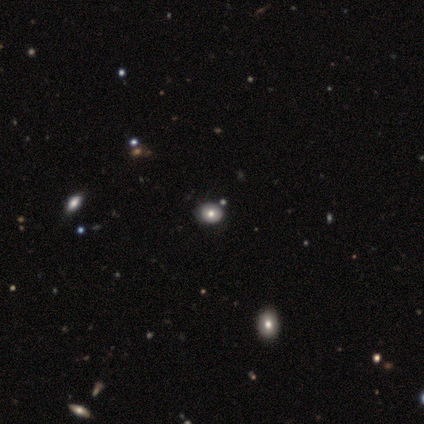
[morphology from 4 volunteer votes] Smooth or featured? smooth (50%, tied with star or artifact)
How rounded? in between (100%)
Merging? none (50%, tied with minor disturbance)